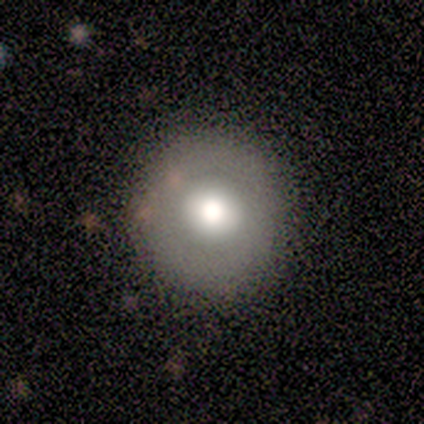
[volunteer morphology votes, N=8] Q: Smooth or featured?
A: smooth (62%); runner-up: featured or disk (25%)
Q: How rounded?
A: round (100%)
Q: Merging?
A: none (71%); runner-up: minor disturbance (29%)